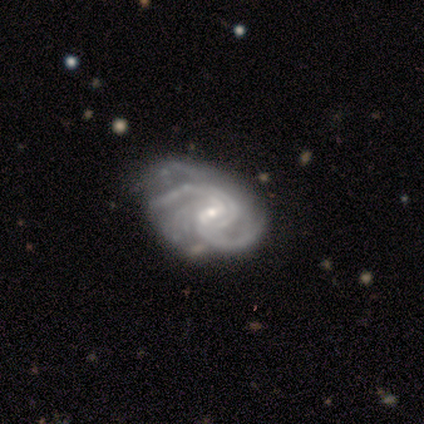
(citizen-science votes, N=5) Smooth or featured?
  - featured or disk: 100% *
  - smooth: 0%
  - star or artifact: 0%
Edge-on disk?
  - no: 100% *
  - yes: 0%
Bar?
  - weak: 60% *
  - no: 40%
  - strong: 0%
Spiral arms?
  - yes: 100% *
  - no: 0%
Spiral winding?
  - medium: 80% *
  - tight: 20%
  - loose: 0%
Spiral arm count?
  - 3: 60% *
  - 2: 20%
  - can't tell: 20%
  - 1: 0%
  - 4: 0%
  - more than 4: 0%
Bulge size?
  - small: 80% *
  - moderate: 20%
  - dominant: 0%
  - large: 0%
  - none: 0%
Merging?
  - none: 40% * (tied)
  - minor disturbance: 40% * (tied)
  - merger: 20%
  - major disturbance: 0%